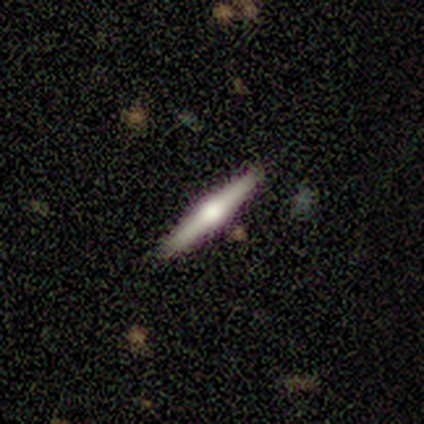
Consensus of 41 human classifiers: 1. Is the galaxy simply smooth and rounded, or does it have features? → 63% featured or disk, 27% smooth, 10% star or artifact.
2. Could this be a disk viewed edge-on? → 92% yes, 8% no.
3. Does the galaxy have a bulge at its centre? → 96% rounded, 4% boxy, 0% none.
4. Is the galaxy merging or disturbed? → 89% none, 5% minor disturbance, 5% merger, 0% major disturbance.